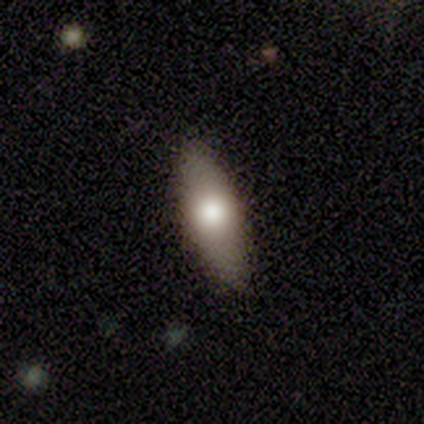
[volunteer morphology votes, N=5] Overall: smooth (60%; featured or disk 20%). How rounded: in between (100%). Merging: none (75%).